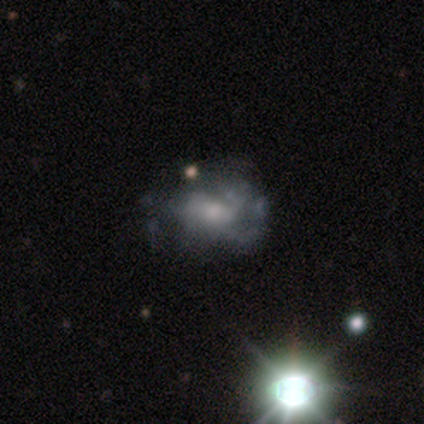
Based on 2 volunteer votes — Smooth or featured? smooth (50%, tied with featured or disk)
How rounded? round (100%)
Merging? none (100%)